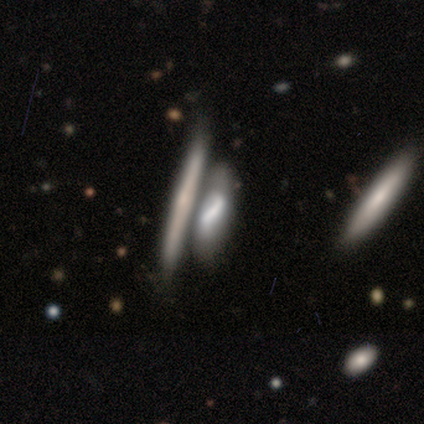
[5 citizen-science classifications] This appears to be a smooth galaxy with no disk features (80%) that is cigar-shaped (75%). Merging: merger (60%).